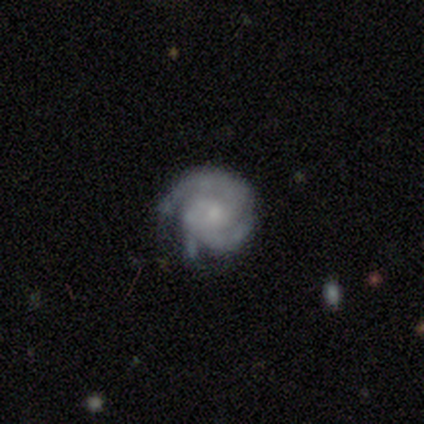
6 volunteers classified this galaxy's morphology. Overall: featured or disk (100%). Edge-on disk: no (100%). Bar: no (83%). Spiral arms: yes (100%). Spiral arm count: 2 (67%; 3 33%). Spiral winding: tight (67%; medium 33%). Bulge size: small (67%). Merging: none (83%).